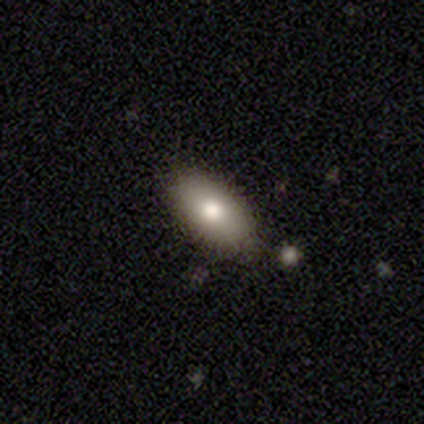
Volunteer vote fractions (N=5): Q: Smooth or featured?
A: smooth (80%); runner-up: featured or disk (20%)
Q: How rounded?
A: in between (100%)
Q: Merging?
A: none (100%)